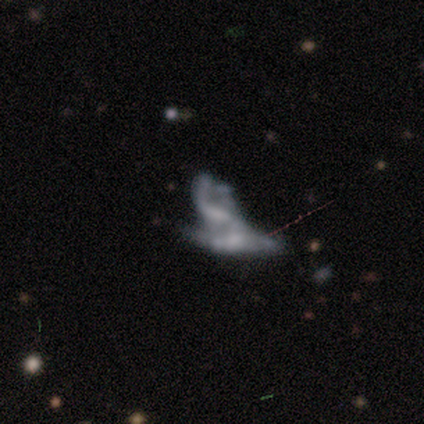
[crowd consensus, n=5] Morphology: type=featured or disk (60%); edge-on=no (67%); bar=no (100%); spiral arms=no (100%); bulge=none (100%); merging=merger (100%).